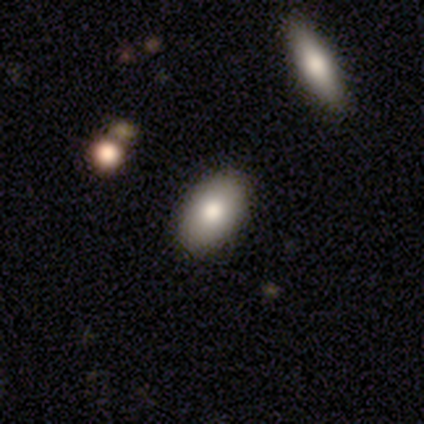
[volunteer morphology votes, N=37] Smooth or featured?
  - smooth: 76% *
  - featured or disk: 22%
  - star or artifact: 3%
How rounded?
  - in between: 89% *
  - round: 11%
  - cigar-shaped: 0%
Merging?
  - none: 92% *
  - minor disturbance: 3%
  - major disturbance: 3%
  - merger: 3%